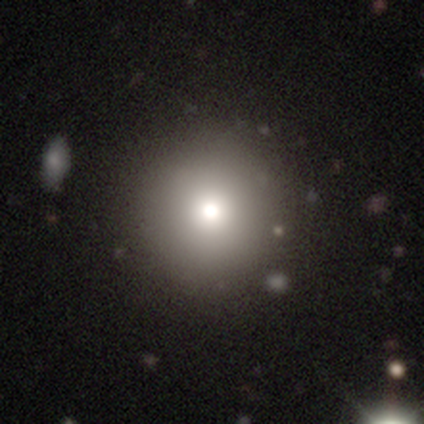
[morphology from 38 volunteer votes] smooth-or-featured: smooth: 87% | featured or disk: 8% | star or artifact: 5%
  how-rounded: round: 94% | in between: 6% | cigar-shaped: 0%
  merging: none: 75% | minor disturbance: 6% | major disturbance: 3% | merger: 3%